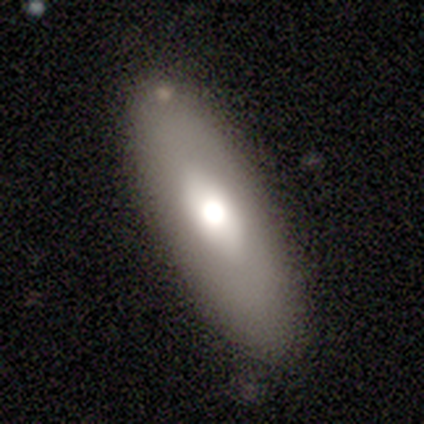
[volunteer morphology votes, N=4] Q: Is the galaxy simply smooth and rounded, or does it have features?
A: smooth — 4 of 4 (100%).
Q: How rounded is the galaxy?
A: in between — 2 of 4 (50%, tied with cigar-shaped).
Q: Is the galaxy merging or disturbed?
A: none — 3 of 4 (75%).